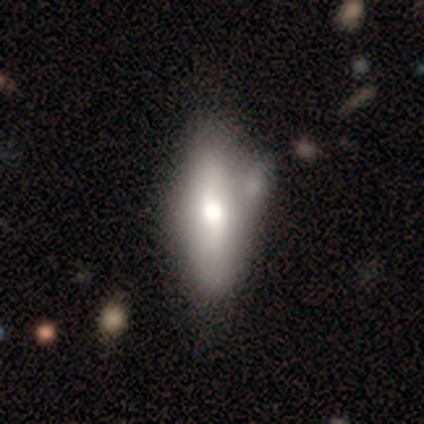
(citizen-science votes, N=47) Smooth or featured: smooth — 49% (featured or disk — 45%)
How rounded: in between — 57% (cigar-shaped — 43%)
Merging: none — 55% (minor disturbance — 32%)